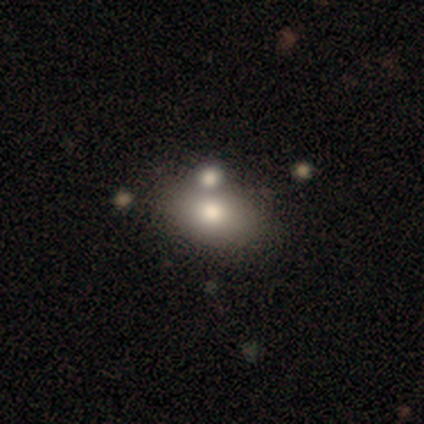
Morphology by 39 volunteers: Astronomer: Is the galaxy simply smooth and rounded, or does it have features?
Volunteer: smooth — 56%.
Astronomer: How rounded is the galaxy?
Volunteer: in between — 95%.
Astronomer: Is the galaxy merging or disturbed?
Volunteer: none — 59%.